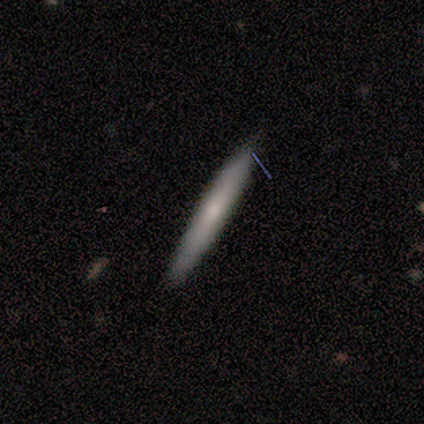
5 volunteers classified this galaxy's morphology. A smooth galaxy with no disk features (100%) that is cigar-shaped (80%). Merging: none (100%).